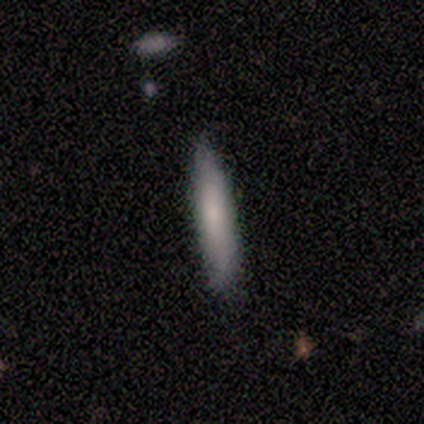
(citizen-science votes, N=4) Q: Smooth or featured?
A: smooth (75%); runner-up: featured or disk (25%)
Q: How rounded?
A: cigar-shaped (100%)
Q: Merging?
A: none (100%)